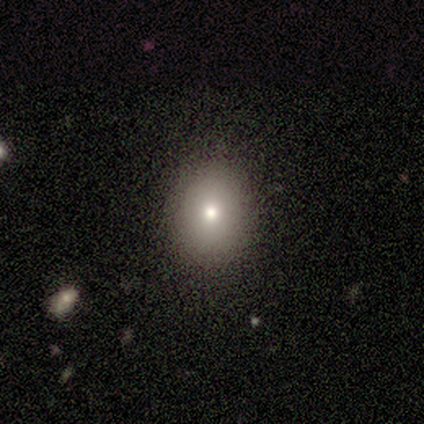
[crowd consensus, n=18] A smooth galaxy with no disk features (83%) that is round (53%). Merging: none (88%).